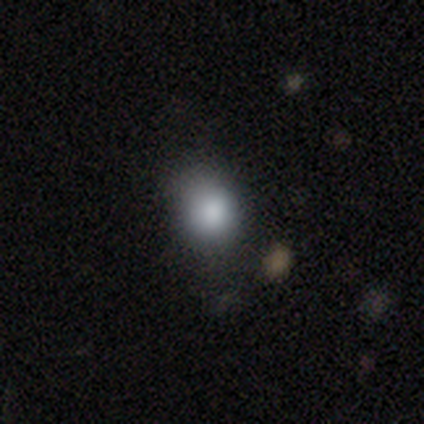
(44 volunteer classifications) This is likely a smooth galaxy (68%). How rounded: likely round (70%). Merging: likely none (66%).